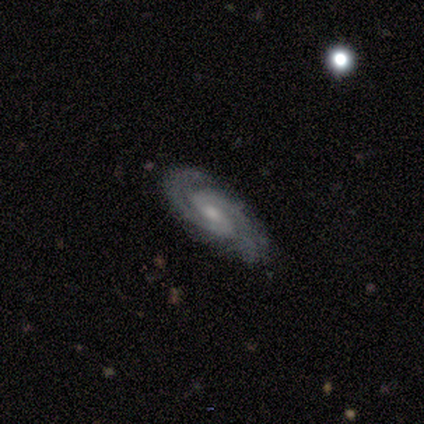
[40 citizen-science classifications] This is clearly a featured or disk galaxy (85%). It is clearly not viewed edge-on (97%). Bar: possibly weak (58%). Spiral arm pattern: clearly yes (100%). Spiral arm count: likely 2 (61%). Spiral winding: likely tight (61%). Central bulge: possibly small (55%). Merging: likely none (76%).